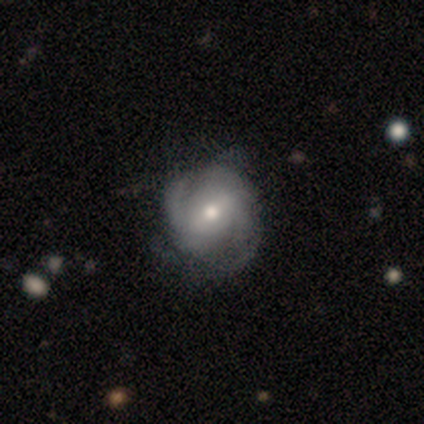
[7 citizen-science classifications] featured or disk 100%, smooth 0%, star or artifact 0%. Down the decision tree: edge-on disk — no (100%); bar — weak (43%); spiral arms — yes (86%); spiral arm count — 2 (100%); spiral winding — medium (50%, tied with loose); bulge size — small (57%); merging — none (57%).